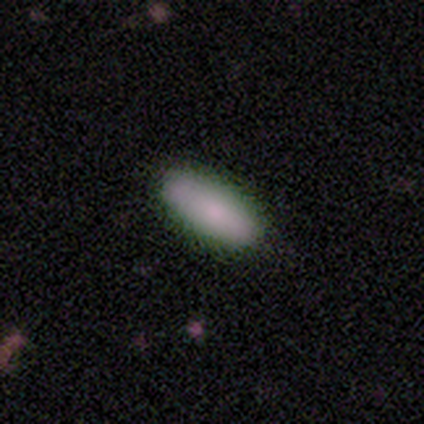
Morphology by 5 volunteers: This is clearly a smooth galaxy (100%). How rounded: likely in between (60%). Merging: clearly none (100%).